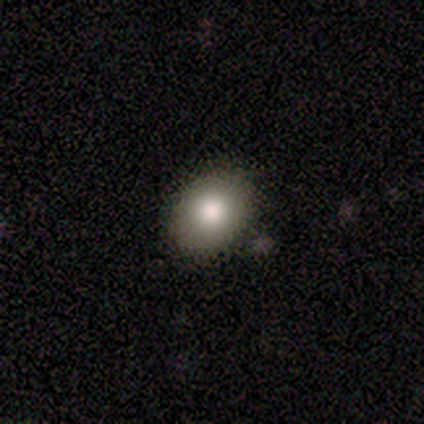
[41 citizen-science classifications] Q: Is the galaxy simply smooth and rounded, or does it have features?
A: smooth — 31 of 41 (76%).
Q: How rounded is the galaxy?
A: in between — 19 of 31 (61%).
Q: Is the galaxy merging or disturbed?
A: none — 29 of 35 (83%).